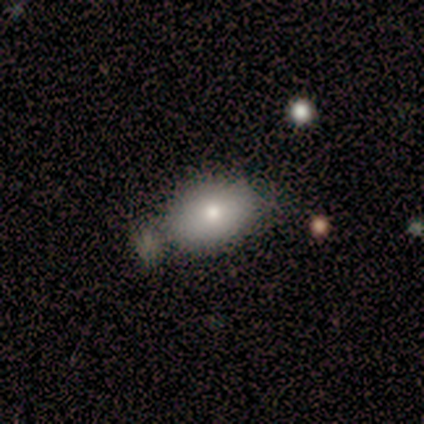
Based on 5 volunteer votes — smooth-or-featured: smooth: 80% | featured or disk: 20% | star or artifact: 0%
  how-rounded: in between: 100% | round: 0% | cigar-shaped: 0%
  merging: none: 40% | minor disturbance: 20% | major disturbance: 20% | merger: 20%